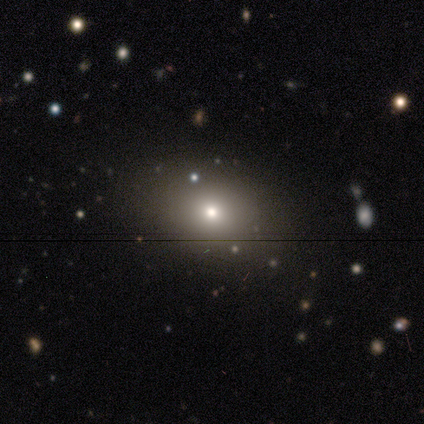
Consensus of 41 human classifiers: Smooth or featured? smooth (63%)
How rounded? in between (69%)
Merging? none (93%)